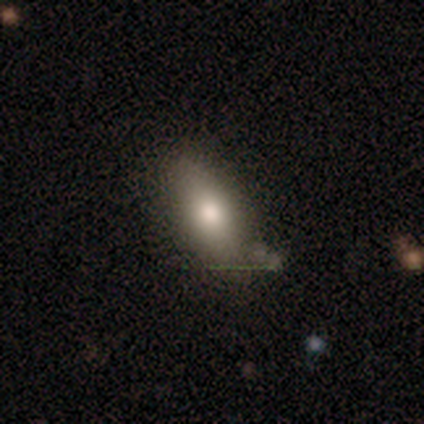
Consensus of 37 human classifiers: smooth_or_featured: smooth (p=0.57) [alt: featured or disk p=0.32]
how_rounded: in between (p=0.76) [alt: cigar-shaped p=0.24]
merging: none (p=0.82) [alt: minor disturbance p=0.15]